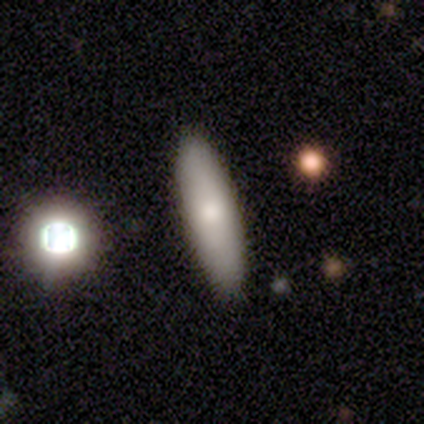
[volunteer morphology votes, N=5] A smooth galaxy with no disk features (60%) that is cigar-shaped (67%). Merging: none (100%).